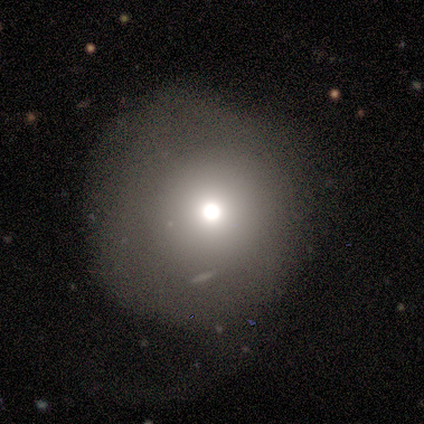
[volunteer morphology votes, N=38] smooth_or_featured: smooth (p=0.74) [alt: featured or disk p=0.16]
how_rounded: round (p=0.86) [alt: in between p=0.14]
merging: none (p=0.50) [alt: minor disturbance p=0.26]